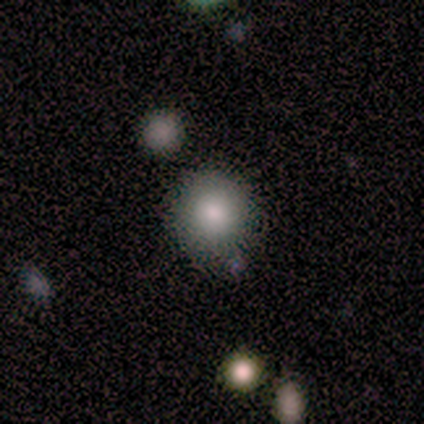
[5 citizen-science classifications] smooth_or_featured: smooth (p=0.40) [tied with: star or artifact p=0.40]
how_rounded: round (p=1.00)
merging: none (p=0.67) [alt: minor disturbance p=0.33]